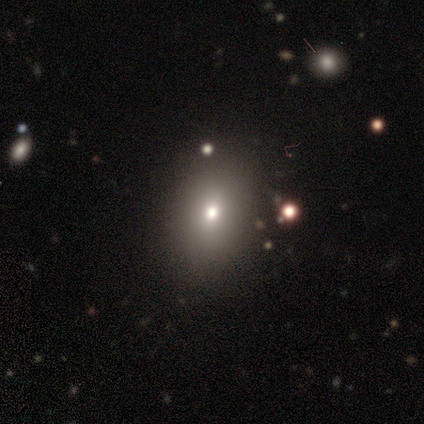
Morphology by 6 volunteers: A smooth galaxy with no disk features (100%) that is in between round and cigar-shaped (83%).

Vote fractions:
- Smooth or featured? smooth: 100% / featured or disk: 0% / star or artifact: 0%
- How rounded? in between: 83% / round: 17% / cigar-shaped: 0%
- Merging? none: 100% / minor disturbance: 0% / major disturbance: 0% / merger: 0%